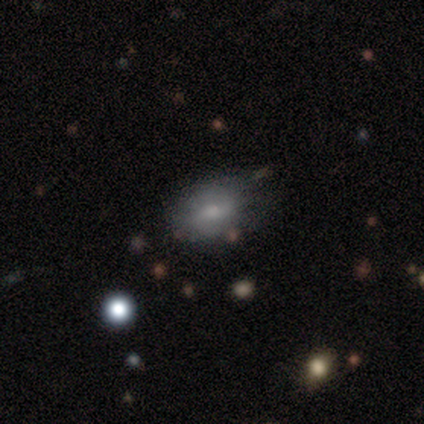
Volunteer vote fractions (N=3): Smooth or featured? 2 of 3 (67%) said smooth. How rounded? 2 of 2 (100%) said in between. Merging? 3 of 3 (100%) said none.